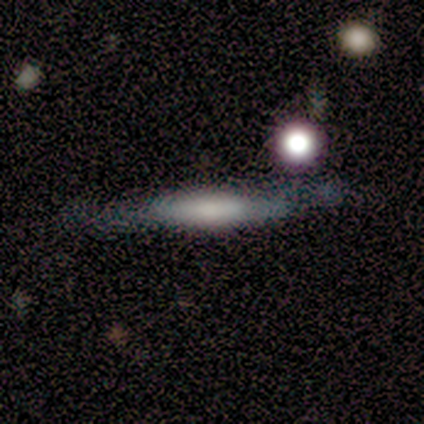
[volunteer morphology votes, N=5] Smooth or featured?
  - smooth: 40% * (tied)
  - featured or disk: 40% * (tied)
  - star or artifact: 20%
How rounded?
  - cigar-shaped: 100% *
  - round: 0%
  - in between: 0%
Merging?
  - none: 50% *
  - minor disturbance: 25%
  - major disturbance: 25%
  - merger: 0%